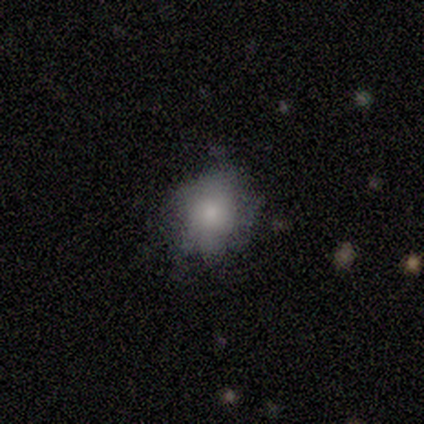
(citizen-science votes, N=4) Smooth or featured?
  - smooth: 50% * (tied)
  - featured or disk: 50% * (tied)
  - star or artifact: 0%
How rounded?
  - in between: 100% *
  - round: 0%
  - cigar-shaped: 0%
Merging?
  - none: 75% *
  - major disturbance: 25%
  - minor disturbance: 0%
  - merger: 0%